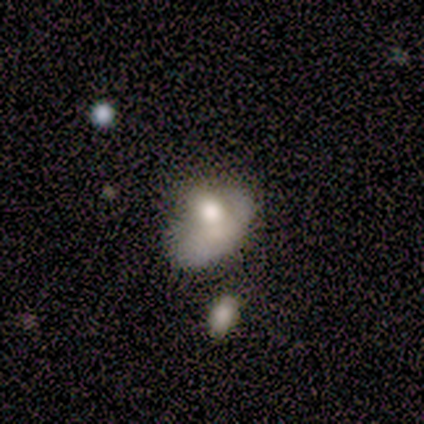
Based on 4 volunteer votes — Smooth or featured: featured or disk — 75% (smooth — 25%)
Edge-on disk: no — 100%
Bar: no — 100%
Spiral arms: no — 100%
Bulge size: moderate — 67% (large — 33%)
Merging: major disturbance — 50% (tied with merger — 50%)